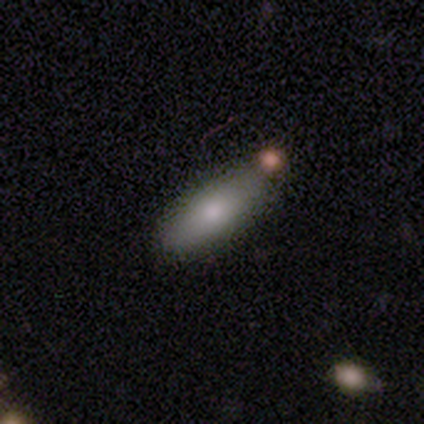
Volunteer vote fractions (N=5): smooth 80%, featured or disk 20%, star or artifact 0%. Down the decision tree: how rounded — in between (50%, tied with cigar-shaped); merging — none (80%).